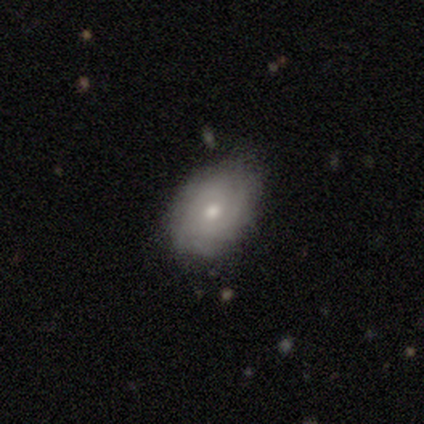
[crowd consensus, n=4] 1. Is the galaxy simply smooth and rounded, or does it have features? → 50% smooth (tied), 50% featured or disk (tied), 0% star or artifact.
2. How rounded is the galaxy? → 50% round (tied), 50% in between (tied), 0% cigar-shaped.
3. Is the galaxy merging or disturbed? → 100% none, 0% minor disturbance, 0% major disturbance, 0% merger.